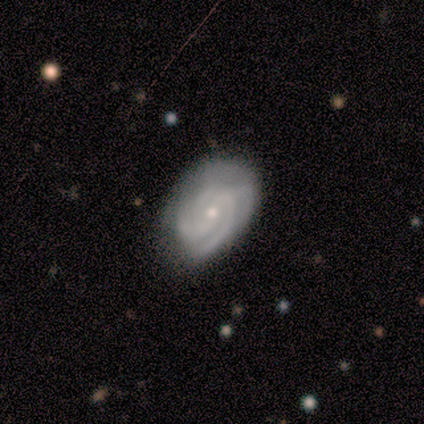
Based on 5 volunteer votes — A featured or disk galaxy (60%) with no bar (67%), tight (100%) spiral arms (100%) and a small central bulge (100%). Merging: none (100%).